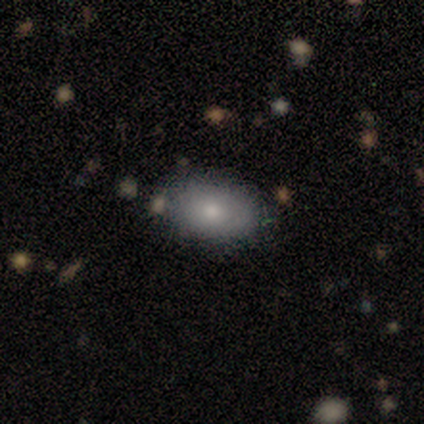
Volunteers were most divided on "smooth or featured": smooth: 60%, featured or disk: 20%, star or artifact: 20%. More confident: how rounded — in between (100%); merging — none (100%).